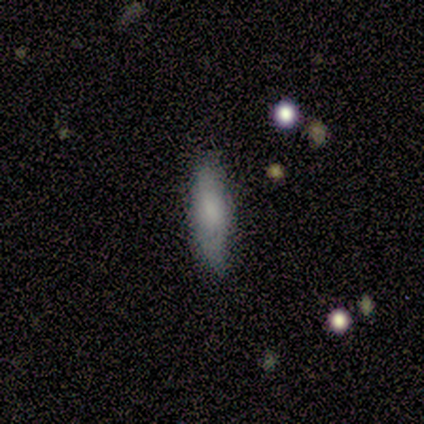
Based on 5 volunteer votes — Q: Smooth or featured?
A: smooth (80%); runner-up: featured or disk (20%)
Q: How rounded?
A: cigar-shaped (75%); runner-up: in between (25%)
Q: Merging?
A: none (100%)